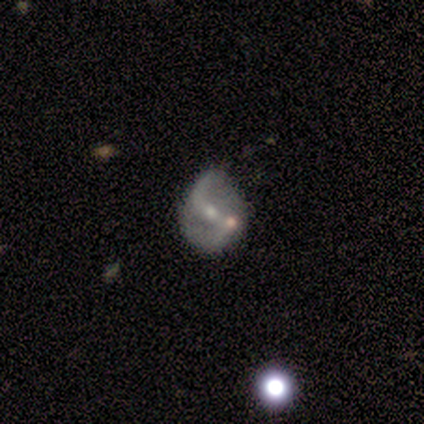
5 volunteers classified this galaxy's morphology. Smooth or featured: featured or disk — 80% (smooth — 20%)
Edge-on disk: no — 100%
Bar: weak — 50% (tied with no — 50%)
Spiral arms: yes — 75% (no — 25%)
Spiral winding: loose — 67% (medium — 33%)
Spiral arm count: 2 — 67% (1 — 33%)
Bulge size: small — 100%
Merging: minor disturbance — 60% (none — 20%)